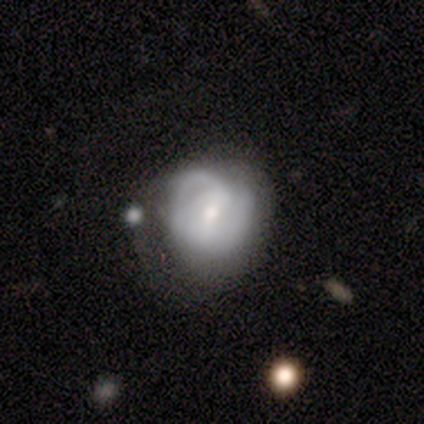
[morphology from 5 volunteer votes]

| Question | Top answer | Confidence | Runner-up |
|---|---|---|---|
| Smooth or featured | featured or disk | 100% | — |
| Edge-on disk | no | 100% | — |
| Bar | weak | 80% | strong (20%) |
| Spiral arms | yes | 100% | — |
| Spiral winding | tight | 60% | medium (40%) |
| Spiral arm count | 2 | 60% | 3 (20%) |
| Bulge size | moderate | 80% | none (20%) |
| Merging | minor disturbance | 40% | none (20%) |